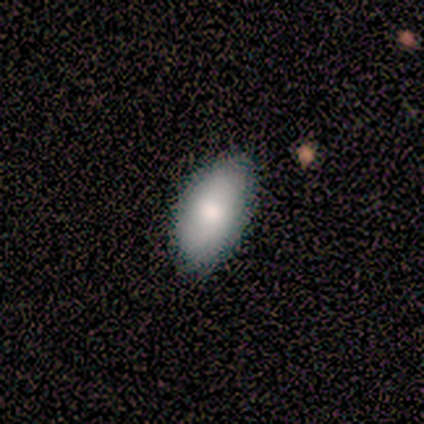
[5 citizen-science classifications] smooth 100%, featured or disk 0%, star or artifact 0%. Down the decision tree: how rounded — in between (100%); merging — none (80%).